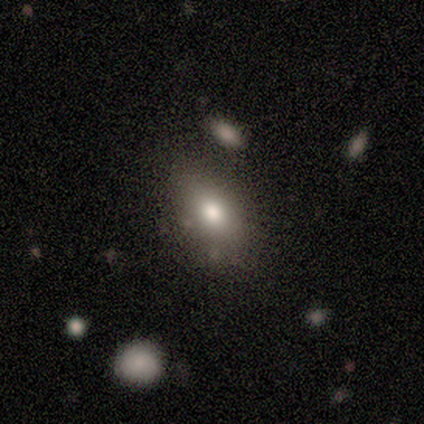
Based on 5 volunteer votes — Smooth or featured? smooth (100%)
How rounded? in between (80%)
Merging? none (60%)